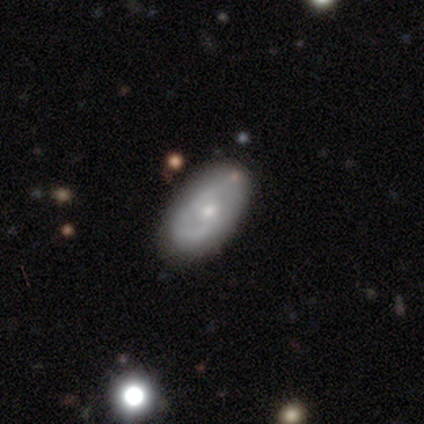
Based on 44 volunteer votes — Smooth or featured: featured or disk — 66% (smooth — 30%)
Edge-on disk: no — 93% (yes — 7%)
Bar: no — 52% (weak — 37%)
Spiral arms: yes — 85% (no — 15%)
Spiral winding: medium — 70% (tight — 17%)
Spiral arm count: 2 — 52% (can't tell — 43%)
Bulge size: moderate — 52% (small — 41%)
Merging: none — 83% (minor disturbance — 7%)